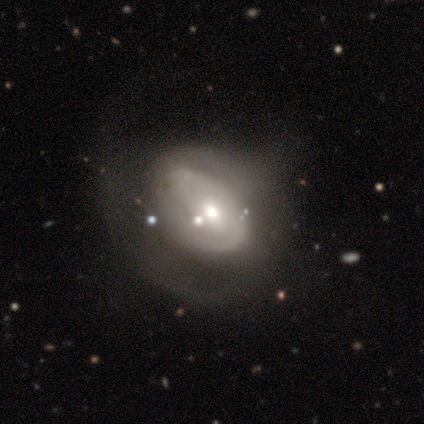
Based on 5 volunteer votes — A featured or disk galaxy (60%) with no bar (67%), tight (100%) spiral arms (100%) and a moderate central bulge (67%).

Vote fractions:
- Smooth or featured? featured or disk: 60% / smooth: 40% / star or artifact: 0%
- Edge-on disk? no: 100% / yes: 0%
- Bar? no: 67% / weak: 33% / strong: 0%
- Spiral arms? yes: 100% / no: 0%
- Spiral winding? tight: 100% / medium: 0% / loose: 0%
- Spiral arm count? can't tell: 67% / 2: 33% / 1: 0% / 3: 0% / 4: 0% / more than 4: 0%
- Bulge size? moderate: 67% / small: 33% / dominant: 0% / large: 0% / none: 0%
- Merging? none: 40% (tied) / major disturbance: 40% (tied) / merger: 20% / minor disturbance: 0%